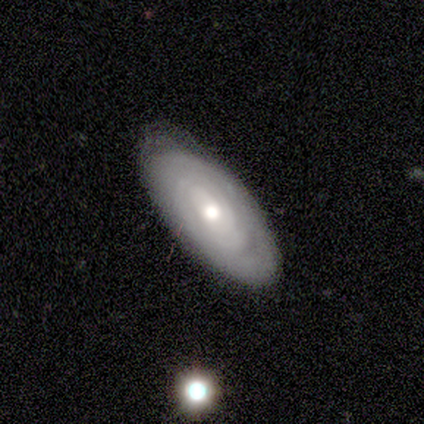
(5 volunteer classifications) A featured or disk galaxy (80%) with no bar (75%), no spiral arms (100%) and a moderate central bulge (100%). Merging: none (80%).